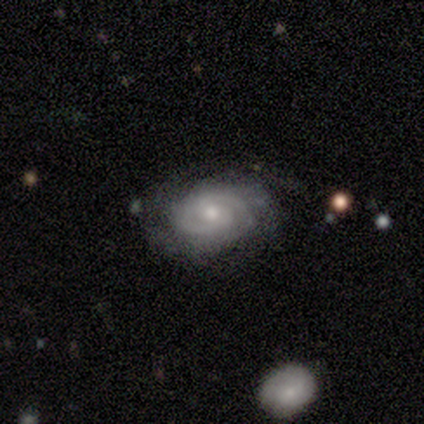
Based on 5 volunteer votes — Smooth or featured? 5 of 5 (100%) said featured or disk. Edge-on disk? 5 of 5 (100%) said no. Bar? 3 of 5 (60%) said weak. Spiral arms? 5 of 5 (100%) said yes. Spiral winding? 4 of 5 (80%) said tight. Spiral arm count? 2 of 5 (40%) said 2. Bulge size? 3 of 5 (60%) said small. Merging? 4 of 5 (80%) said none.